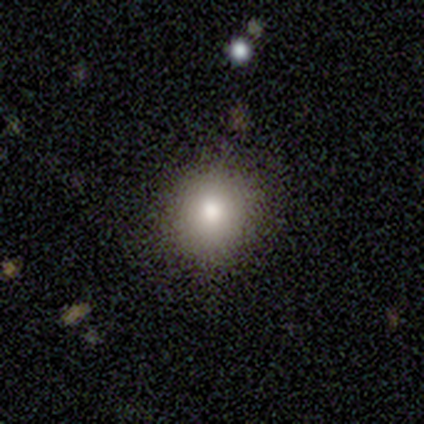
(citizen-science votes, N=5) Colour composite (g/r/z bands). It shows a smooth galaxy with no disk features (80%) that is round (100%). Merging: none (100%).